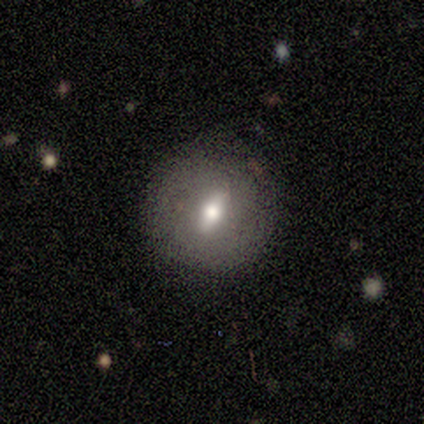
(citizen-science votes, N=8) Smooth or featured?
  - smooth: 50% * (tied)
  - featured or disk: 50% * (tied)
  - star or artifact: 0%
How rounded?
  - round: 75% *
  - in between: 25%
  - cigar-shaped: 0%
Merging?
  - none: 100% *
  - minor disturbance: 0%
  - major disturbance: 0%
  - merger: 0%